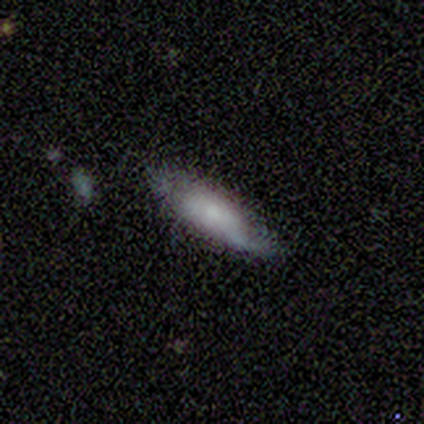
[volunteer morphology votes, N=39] smooth 62%, featured or disk 33%, star or artifact 5%. Down the decision tree: how rounded — cigar-shaped (50%); merging — none (70%).